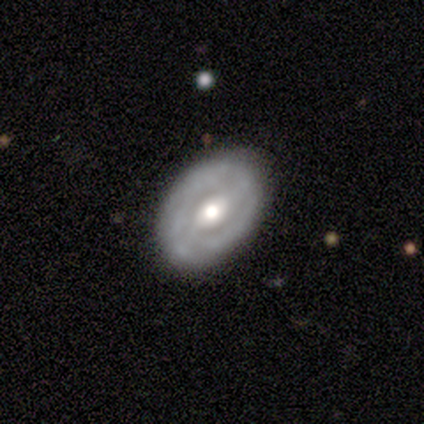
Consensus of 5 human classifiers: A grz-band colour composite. It shows a featured or disk galaxy (60%) with a weak bar (67%), tight (50%, tied with medium) spiral arms (67%) and a moderate central bulge (67%). Merging: none (60%).